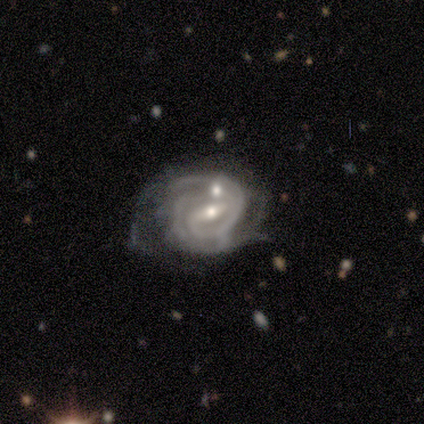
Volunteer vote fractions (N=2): smooth_or_featured: featured or disk (p=1.00)
disk_edge_on: no (p=1.00)
bar: strong (p=1.00)
has_spiral_arms: yes (p=1.00)
spiral_winding: tight (p=1.00)
spiral_arm_count: 2 (p=1.00)
bulge_size: moderate (p=1.00)
merging: minor disturbance (p=0.50) [tied with: merger p=0.50]